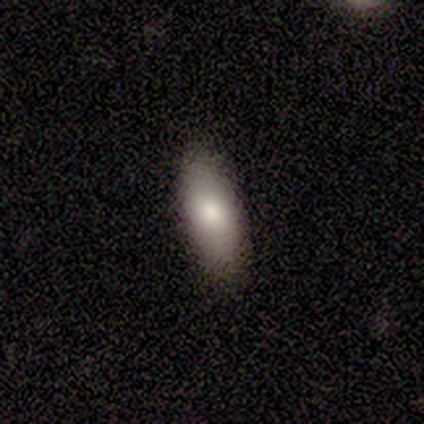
This appears to be a smooth galaxy with no disk features (100%) that is in between round and cigar-shaped (80%). Merging: none (100%).